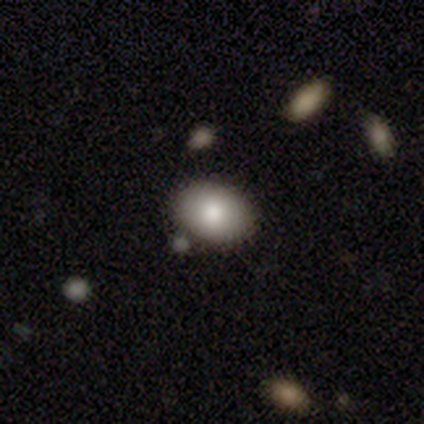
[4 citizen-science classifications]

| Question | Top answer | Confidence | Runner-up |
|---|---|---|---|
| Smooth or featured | smooth | 100% | — |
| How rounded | in between | 100% | — |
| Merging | none | 100% | — |